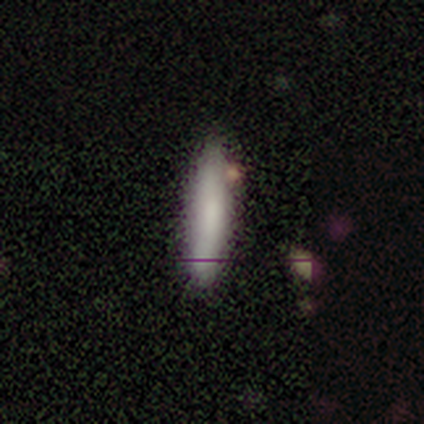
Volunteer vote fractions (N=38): Volunteers were most divided on "merging": none: 83%, minor disturbance: 11%, merger: 6%, major disturbance: 0%. More confident: how rounded — cigar-shaped (88%); smooth or featured — smooth (84%).